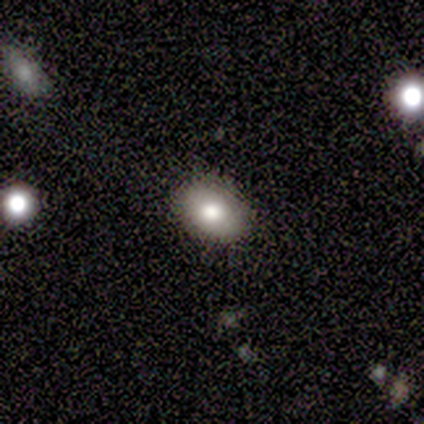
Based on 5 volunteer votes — Volunteers were most divided on "how rounded" (2-way tie): round: 50%, in between: 50%, cigar-shaped: 0%. More confident: merging — none (100%); smooth or featured — smooth (80%).